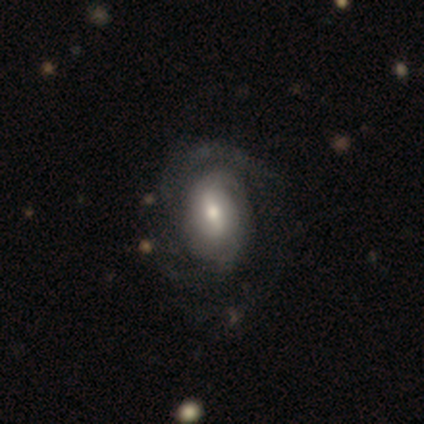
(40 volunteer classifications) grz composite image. It shows a featured or disk galaxy (65%) with a weak bar (50%), 2 (39%) tight (52%) spiral arms (88%) and a moderate central bulge (46%). Merging: none (43%).